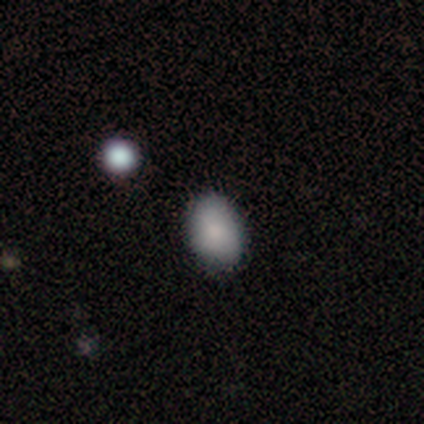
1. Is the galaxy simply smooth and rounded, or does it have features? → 100% smooth, 0% featured or disk, 0% star or artifact.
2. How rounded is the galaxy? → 80% in between, 20% round, 0% cigar-shaped.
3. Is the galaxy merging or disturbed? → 100% none, 0% minor disturbance, 0% major disturbance, 0% merger.